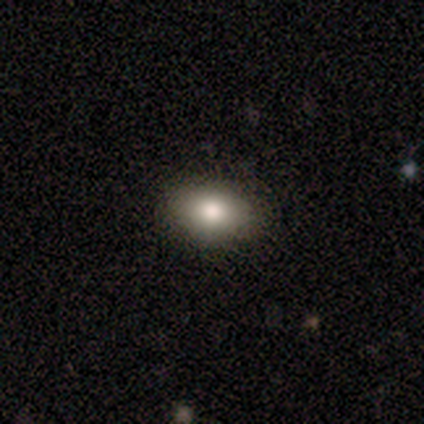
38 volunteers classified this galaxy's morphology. smooth_or_featured: smooth (p=0.76) [alt: featured or disk p=0.13]
how_rounded: in between (p=0.76) [alt: round p=0.17]
merging: none (p=0.88) [alt: minor disturbance p=0.06]